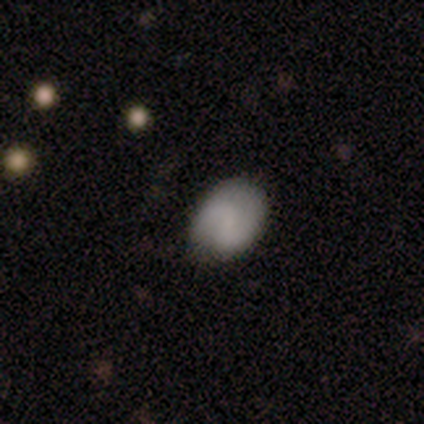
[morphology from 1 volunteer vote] type=featured or disk (100%); edge-on=no (100%); bar=strong (100%); spiral arms=yes (100%); winding=tight (100%); arm count=2 (100%); bulge=none (100%); merging=none (100%).